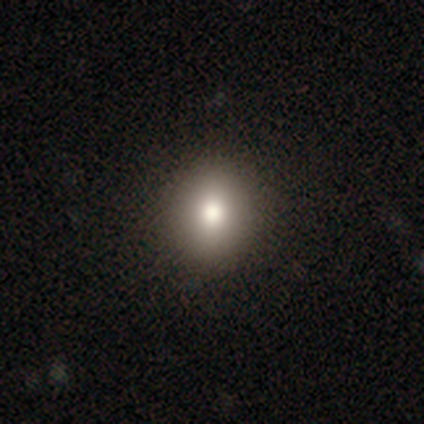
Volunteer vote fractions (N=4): smooth-or-featured: smooth: 100% | featured or disk: 0% | star or artifact: 0%
  how-rounded: round: 75% | in between: 25% | cigar-shaped: 0%
  merging: none: 75% | minor disturbance: 25% | major disturbance: 0% | merger: 0%